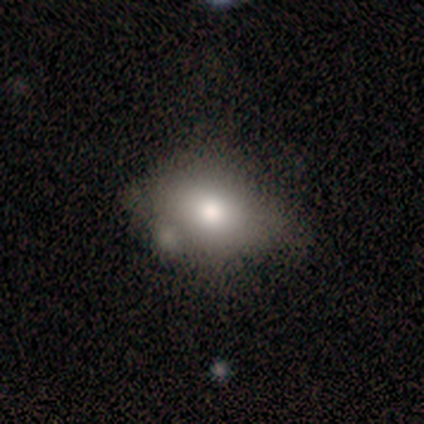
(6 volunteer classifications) Morphology: type=smooth (83%); roundness=in between (100%); merging=none (83%).